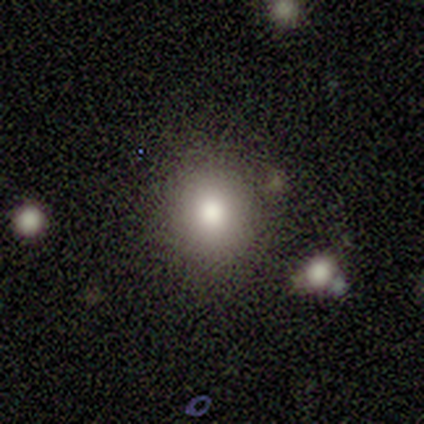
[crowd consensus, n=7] Smooth or featured?
  - smooth: 100% *
  - featured or disk: 0%
  - star or artifact: 0%
How rounded?
  - round: 86% *
  - in between: 14%
  - cigar-shaped: 0%
Merging?
  - none: 100% *
  - minor disturbance: 0%
  - major disturbance: 0%
  - merger: 0%